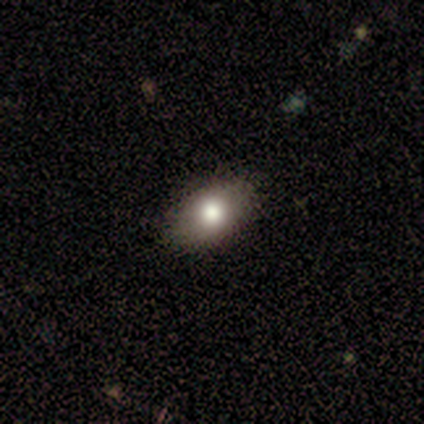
Overall: smooth (86%). How rounded: in between (100%). Merging: none (100%).